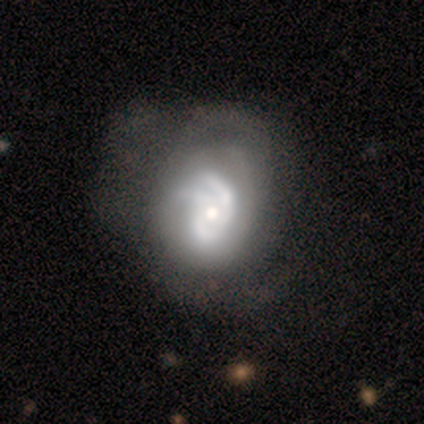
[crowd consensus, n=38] Smooth or featured? featured or disk (84%)
Edge-on disk? no (97%)
Bar? no (81%)
Spiral arms? yes (90%)
Spiral winding? tight (46%)
Spiral arm count? 2 (39%)
Bulge size? moderate (65%)
Merging? major disturbance (28%)